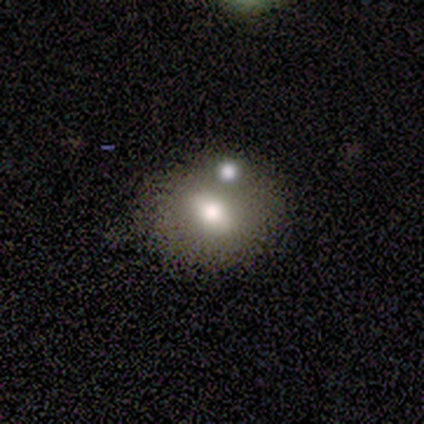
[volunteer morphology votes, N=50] smooth-or-featured: smooth: 52% | featured or disk: 46% | star or artifact: 2%
  how-rounded: in between: 50% | round: 42% | cigar-shaped: 8%
  merging: none: 53% | merger: 24% | minor disturbance: 22% | major disturbance: 0%